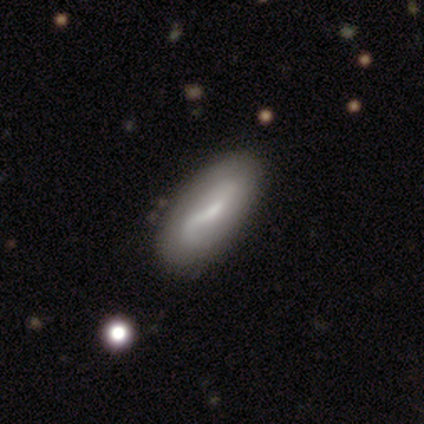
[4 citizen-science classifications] Volunteers were most divided on "spiral arm count" (2-way tie): 2: 50%, can't tell: 50%, 1: 0%, 3: 0%, 4: 0%, more than 4: 0%; "bulge size" (2-way tie): moderate: 50%, small: 50%, dominant: 0%, large: 0%, none: 0%. More confident: bar — weak (100%); spiral arms — yes (100%); spiral winding — loose (100%); merging — none (100%); smooth or featured — featured or disk (75%); edge-on disk — no (67%).